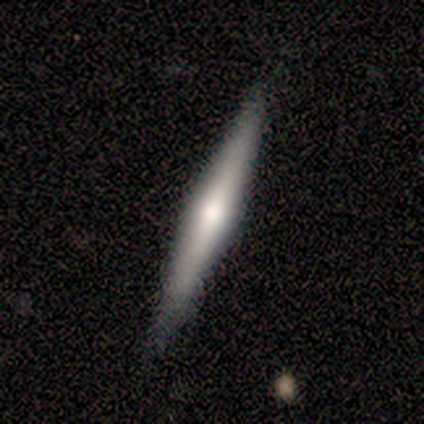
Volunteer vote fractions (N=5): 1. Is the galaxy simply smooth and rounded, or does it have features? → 60% featured or disk, 40% smooth, 0% star or artifact.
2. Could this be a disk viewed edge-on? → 100% yes, 0% no.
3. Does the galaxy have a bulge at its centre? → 67% none, 33% rounded, 0% boxy.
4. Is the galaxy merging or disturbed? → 100% none, 0% minor disturbance, 0% major disturbance, 0% merger.